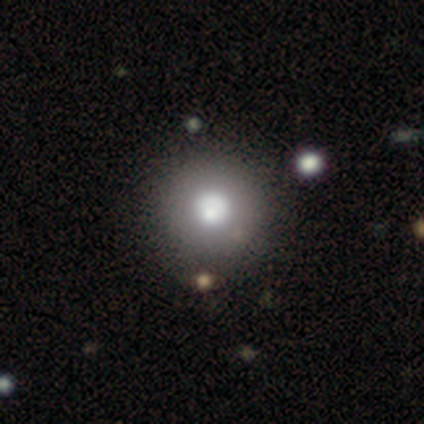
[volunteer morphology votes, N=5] Volunteers were most divided on "smooth or featured": smooth: 60%, star or artifact: 40%, featured or disk: 0%. More confident: how rounded — round (100%); merging — none (100%).